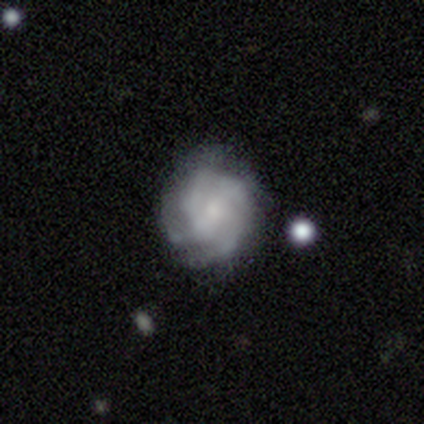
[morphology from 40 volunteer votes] Overall: featured or disk (80%). Edge-on disk: no (100%). Bar: no (66%; weak 28%). Spiral arms: yes (88%). Spiral arm count: 4 (54%; can't tell 25%). Spiral winding: tight (43%, tied with medium). Bulge size: small (56%; moderate 22%). Merging: none (71%).